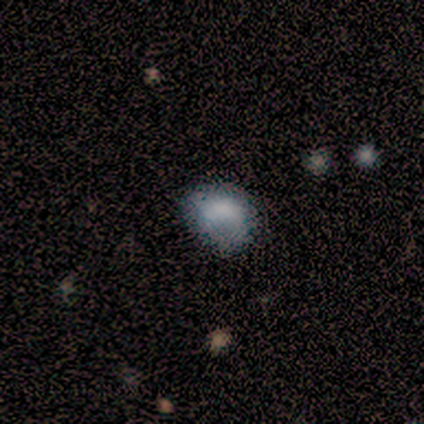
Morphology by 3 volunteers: Overall: smooth (100%). How rounded: round (67%; in between 33%). Merging: none (33%, tied with minor disturbance and major disturbance).